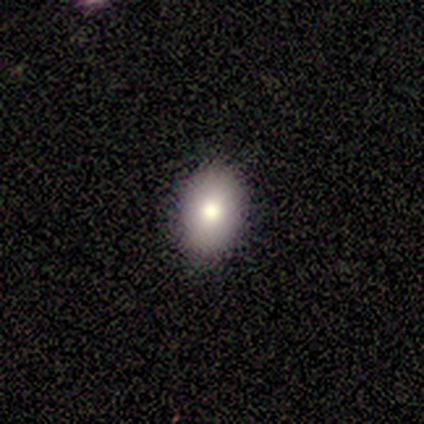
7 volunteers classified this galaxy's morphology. Q: Smooth or featured?
A: smooth (86%); runner-up: featured or disk (14%)
Q: How rounded?
A: in between (100%)
Q: Merging?
A: none (100%)